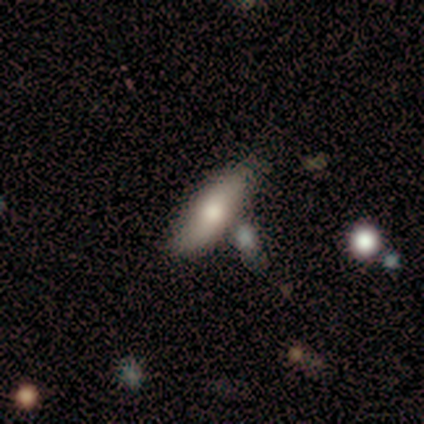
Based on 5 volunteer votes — Smooth or featured? 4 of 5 (80%) said smooth. How rounded? 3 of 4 (75%) said in between. Merging? 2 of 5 (40%, tied with merger) said none.